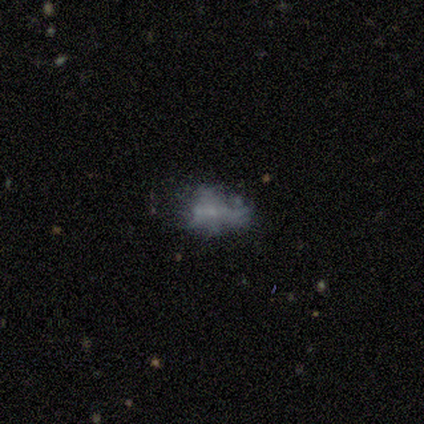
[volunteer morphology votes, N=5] A smooth galaxy with no disk features (60%) that is in between round and cigar-shaped (67%). Merging: none (40%, tied with minor disturbance).